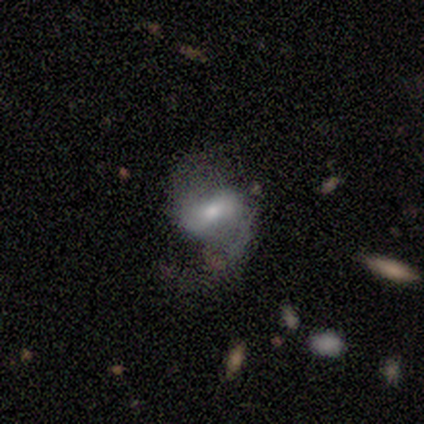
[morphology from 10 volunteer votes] Smooth or featured?
  - featured or disk: 80% *
  - smooth: 10%
  - star or artifact: 10%
Edge-on disk?
  - no: 100% *
  - yes: 0%
Bar?
  - weak: 62% *
  - strong: 25%
  - no: 12%
Spiral arms?
  - yes: 100% *
  - no: 0%
Spiral winding?
  - loose: 62% *
  - medium: 25%
  - tight: 12%
Spiral arm count?
  - 2: 100% *
  - 1: 0%
  - 3: 0%
  - 4: 0%
  - more than 4: 0%
  - can't tell: 0%
Bulge size?
  - moderate: 38% * (tied)
  - small: 38% * (tied)
  - large: 12%
  - none: 12%
  - dominant: 0%
Merging?
  - none: 44% *
  - minor disturbance: 33%
  - major disturbance: 22%
  - merger: 0%